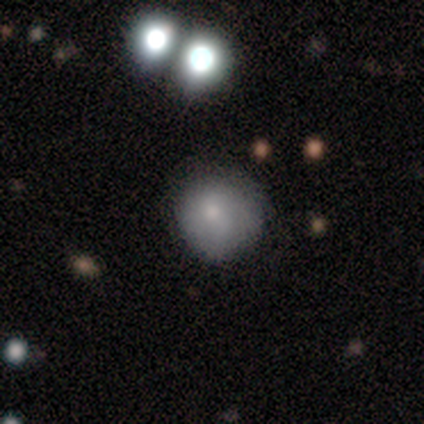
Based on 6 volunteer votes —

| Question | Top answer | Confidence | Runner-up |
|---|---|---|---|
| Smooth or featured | smooth | 83% | star or artifact (17%) |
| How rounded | round | 100% | — |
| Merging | none | 80% | minor disturbance (20%) |